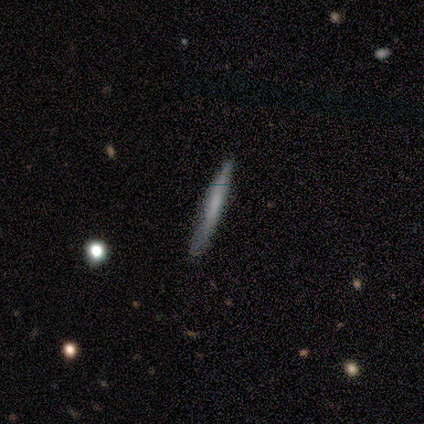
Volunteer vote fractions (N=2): Smooth or featured?
  - smooth: 100% *
  - featured or disk: 0%
  - star or artifact: 0%
How rounded?
  - cigar-shaped: 100% *
  - round: 0%
  - in between: 0%
Merging?
  - none: 100% *
  - minor disturbance: 0%
  - major disturbance: 0%
  - merger: 0%